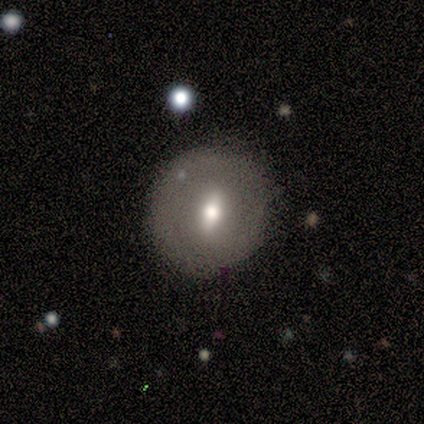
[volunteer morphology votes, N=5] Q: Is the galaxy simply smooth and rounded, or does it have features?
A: featured or disk — 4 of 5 (80%).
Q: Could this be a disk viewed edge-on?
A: no — 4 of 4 (100%).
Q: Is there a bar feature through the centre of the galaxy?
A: weak — 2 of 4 (50%, tied with no).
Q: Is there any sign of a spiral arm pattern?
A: no — 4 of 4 (100%).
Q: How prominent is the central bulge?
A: moderate — 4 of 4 (100%).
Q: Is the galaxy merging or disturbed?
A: none — 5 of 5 (100%).